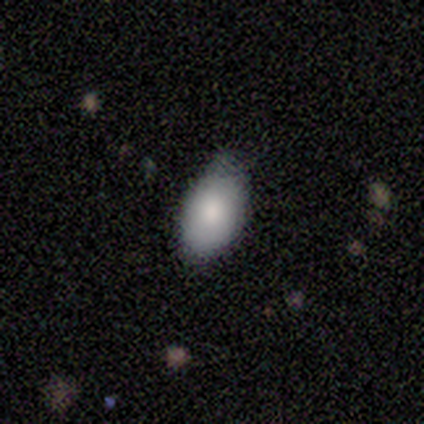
This is clearly a smooth galaxy (80%). How rounded: clearly in between (100%). Merging: likely none (60%).